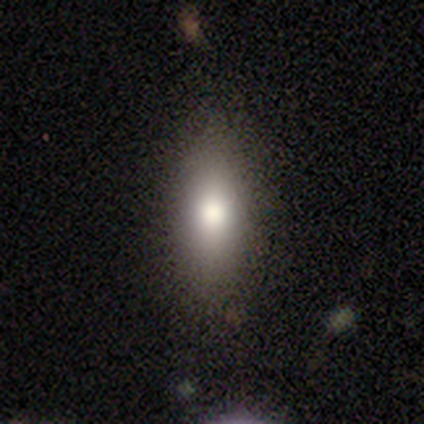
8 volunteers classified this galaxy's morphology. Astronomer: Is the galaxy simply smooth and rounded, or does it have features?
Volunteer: smooth — 75%.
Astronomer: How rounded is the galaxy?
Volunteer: in between — 67%.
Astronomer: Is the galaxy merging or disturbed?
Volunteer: none — 100%.